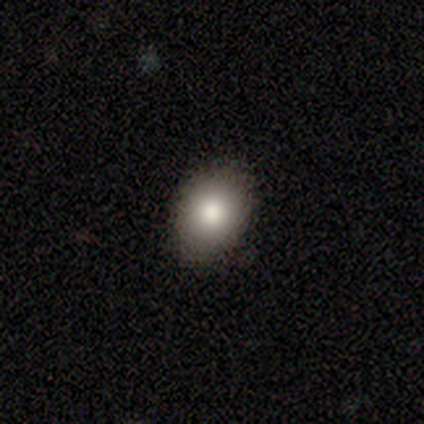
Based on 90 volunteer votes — Smooth or featured: smooth — 84% (star or artifact — 12%)
How rounded: in between — 57% (round — 42%)
Merging: none — 89% (minor disturbance — 10%)